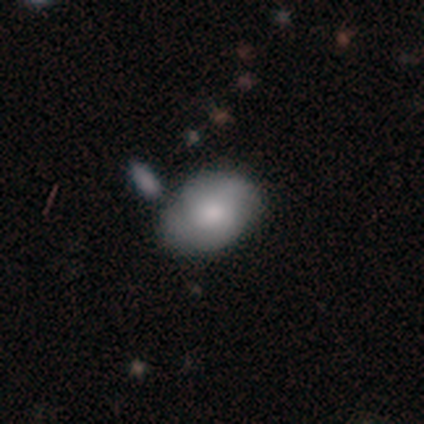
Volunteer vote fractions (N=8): A smooth galaxy with no disk features (75%) that is in between round and cigar-shaped (67%). Merging: none (57%).